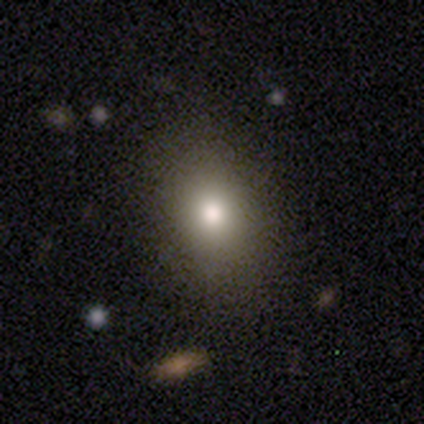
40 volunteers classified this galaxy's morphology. smooth 80%, featured or disk 10%, star or artifact 10%. Down the decision tree: how rounded — in between (69%); merging — none (86%).